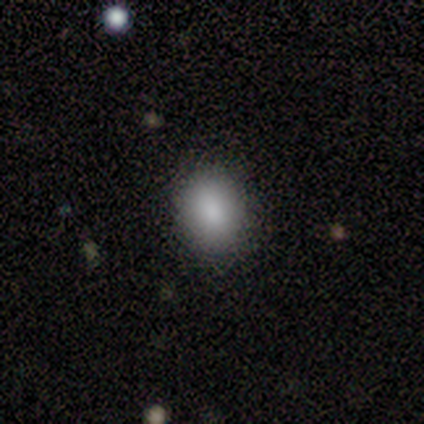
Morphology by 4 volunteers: smooth 75%, star or artifact 25%, featured or disk 0%. Down the decision tree: how rounded — in between (67%); merging — none (67%).